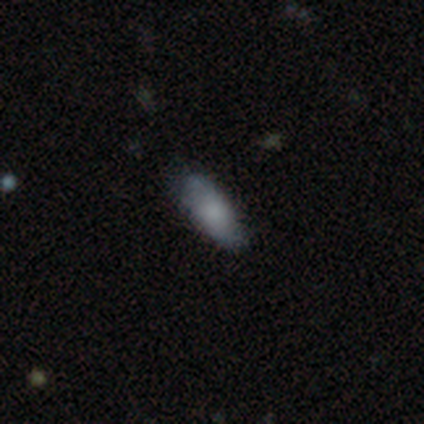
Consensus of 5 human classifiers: Volunteers were most divided on "merging" (2-way tie): none: 50%, minor disturbance: 50%, major disturbance: 0%, merger: 0%. More confident: how rounded — in between (67%); smooth or featured — smooth (60%).